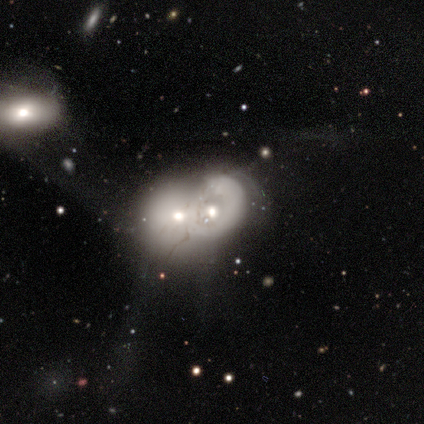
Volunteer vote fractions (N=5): featured or disk 80%, smooth 20%, star or artifact 0%. Down the decision tree: edge-on disk — no (100%); bar — no (100%); spiral arms — no (100%); bulge size — moderate (50%, tied with small); merging — merger (100%).